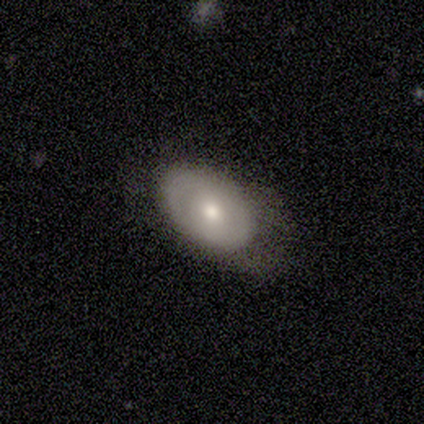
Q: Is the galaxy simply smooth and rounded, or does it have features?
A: featured or disk — 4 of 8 (50%).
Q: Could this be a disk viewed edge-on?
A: no — 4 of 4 (100%).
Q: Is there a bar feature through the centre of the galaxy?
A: no — 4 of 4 (100%).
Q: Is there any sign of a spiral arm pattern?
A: no — 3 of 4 (75%).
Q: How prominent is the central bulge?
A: moderate — 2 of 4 (50%, tied with small).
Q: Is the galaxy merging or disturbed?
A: none — 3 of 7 (43%, tied with minor disturbance).